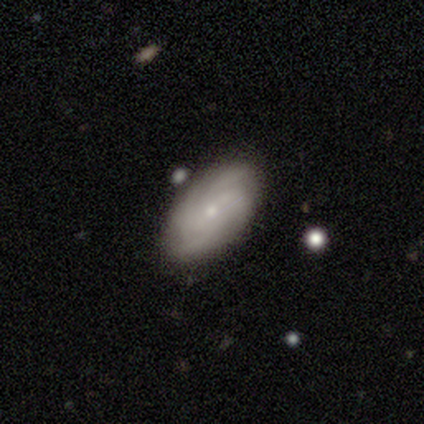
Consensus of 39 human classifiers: This is possibly a featured or disk galaxy (54%). It is clearly not viewed edge-on (90%). Bar: likely no (68%). Spiral arm pattern: clearly yes (100%). Spiral arm count: possibly 4 (53%). Spiral winding: possibly tight (47%). Central bulge: likely small (68%). Merging: clearly none (82%).